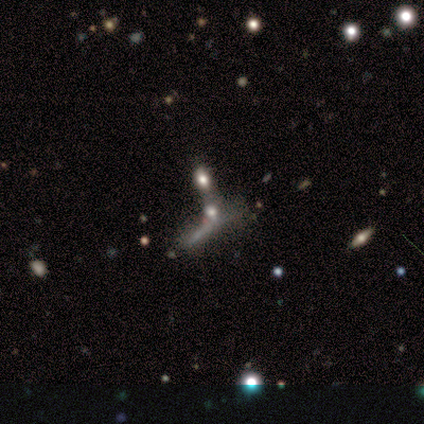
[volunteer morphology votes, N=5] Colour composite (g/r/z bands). It shows a smooth galaxy with no disk features (60%) that is in between round and cigar-shaped (67%). Merging: merger (60%).